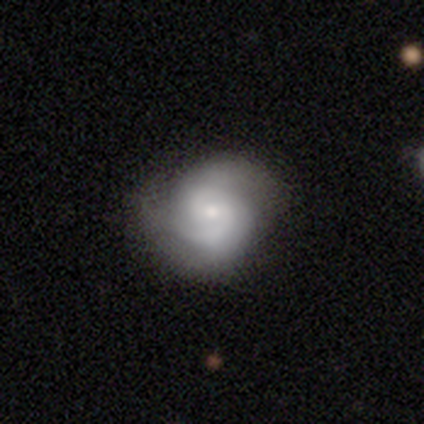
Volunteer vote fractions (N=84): Smooth or featured: featured or disk — 76% (smooth — 15%)
Edge-on disk: no — 97% (yes — 3%)
Bar: no — 52% (weak — 39%)
Spiral arms: yes — 95% (no — 5%)
Spiral winding: medium — 44% (tight — 41%)
Spiral arm count: 2 — 78% (can't tell — 14%)
Bulge size: small — 66% (moderate — 29%)
Merging: none — 78% (minor disturbance — 18%)